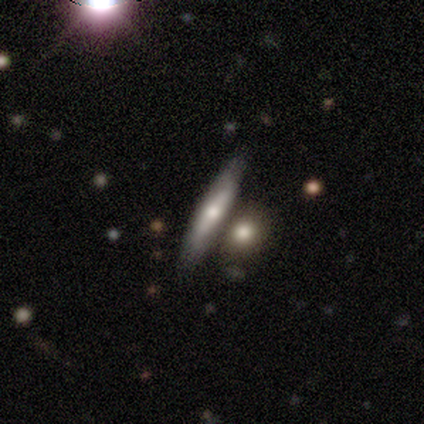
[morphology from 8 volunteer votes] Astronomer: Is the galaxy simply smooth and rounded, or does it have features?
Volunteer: smooth — 75%.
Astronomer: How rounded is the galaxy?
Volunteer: cigar-shaped — 67%.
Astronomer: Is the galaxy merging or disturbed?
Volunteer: none — 62%.